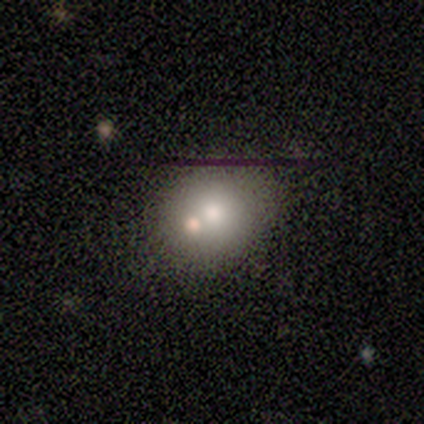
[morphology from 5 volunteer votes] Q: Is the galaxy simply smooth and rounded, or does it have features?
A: smooth — 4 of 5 (80%).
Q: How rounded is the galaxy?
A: round — 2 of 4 (50%, tied with in between).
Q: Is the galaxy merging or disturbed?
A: merger — 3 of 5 (60%).